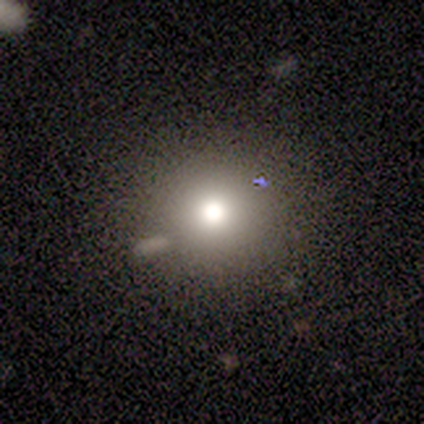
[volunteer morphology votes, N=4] Smooth or featured? 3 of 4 (75%) said smooth. How rounded? 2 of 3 (67%) said round. Merging? 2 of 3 (67%) said none.